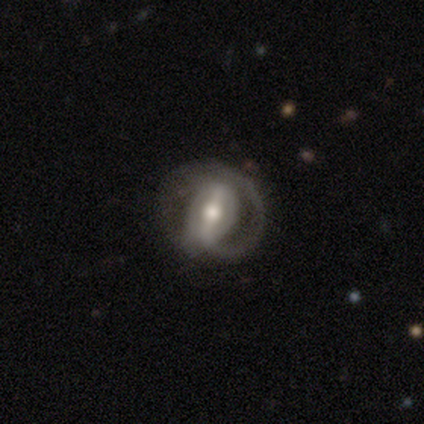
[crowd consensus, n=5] Smooth or featured?
  - smooth: 40% * (tied)
  - featured or disk: 40% * (tied)
  - star or artifact: 20%
How rounded?
  - in between: 100% *
  - round: 0%
  - cigar-shaped: 0%
Merging?
  - major disturbance: 75% *
  - none: 25%
  - minor disturbance: 0%
  - merger: 0%